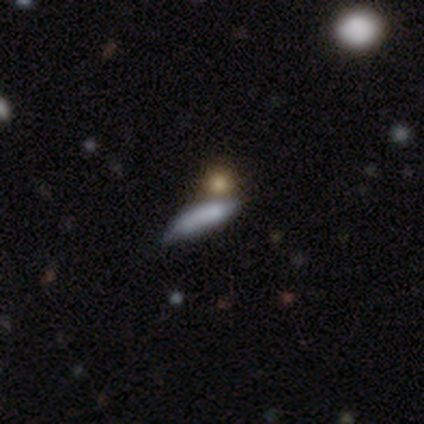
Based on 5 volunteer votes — Q: Smooth or featured?
A: smooth (80%); runner-up: featured or disk (20%)
Q: How rounded?
A: cigar-shaped (75%); runner-up: in between (25%)
Q: Merging?
A: none (80%); runner-up: minor disturbance (20%)